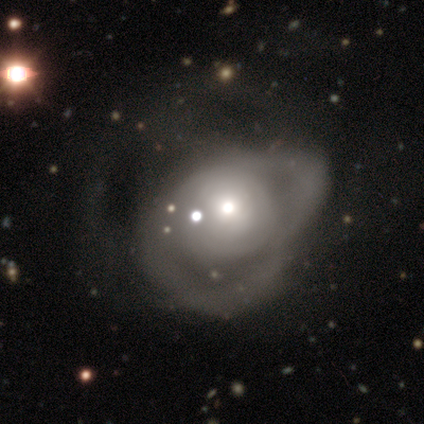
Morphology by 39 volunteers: Q: Smooth or featured?
A: featured or disk (69%); runner-up: smooth (28%)
Q: Edge-on disk?
A: no (100%)
Q: Bar?
A: no (93%); runner-up: weak (7%)
Q: Spiral arms?
A: no (59%); runner-up: yes (41%)
Q: Bulge size?
A: moderate (67%); runner-up: small (22%)
Q: Merging?
A: major disturbance (32%); runner-up: merger (11%)